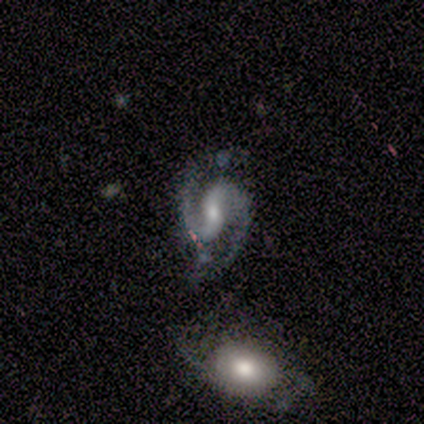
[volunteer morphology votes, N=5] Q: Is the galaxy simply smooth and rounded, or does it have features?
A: featured or disk — 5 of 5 (100%).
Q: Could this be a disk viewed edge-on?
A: no — 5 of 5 (100%).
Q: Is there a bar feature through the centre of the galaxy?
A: weak — 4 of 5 (80%).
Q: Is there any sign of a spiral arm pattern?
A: yes — 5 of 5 (100%).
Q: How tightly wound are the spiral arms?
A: medium — 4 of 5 (80%).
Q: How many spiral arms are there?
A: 2 — 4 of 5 (80%).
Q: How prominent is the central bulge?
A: small — 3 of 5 (60%).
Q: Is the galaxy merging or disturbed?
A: merger — 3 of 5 (60%).